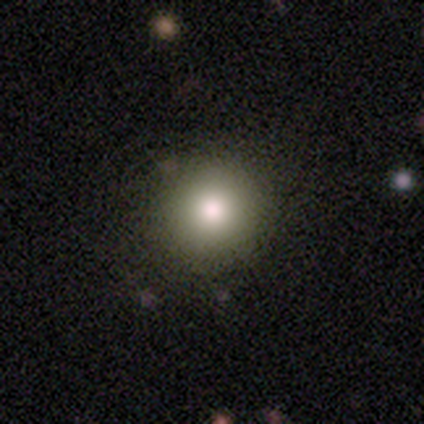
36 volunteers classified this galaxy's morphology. Overall: smooth (78%). How rounded: round (89%). Merging: none (87%).